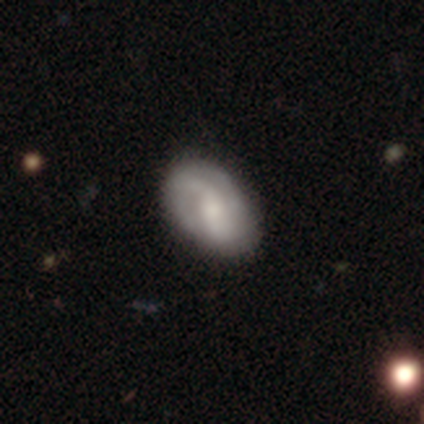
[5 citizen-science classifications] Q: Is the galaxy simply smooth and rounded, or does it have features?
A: smooth — 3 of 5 (60%).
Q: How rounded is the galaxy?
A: in between — 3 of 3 (100%).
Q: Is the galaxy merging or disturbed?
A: none — 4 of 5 (80%).